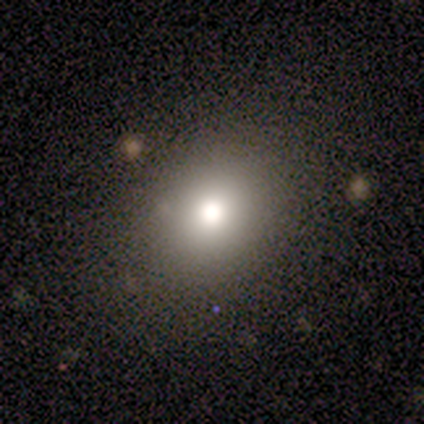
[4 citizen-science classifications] This is likely a smooth galaxy (75%). How rounded: clearly round (100%). Merging: clearly none (100%).